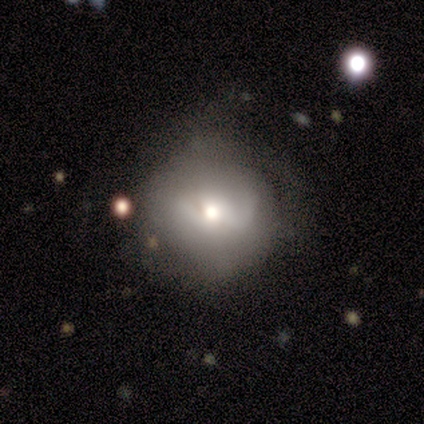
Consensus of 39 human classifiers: This is possibly a smooth galaxy (54%). How rounded: clearly round (81%). Merging: marginally none (43%).